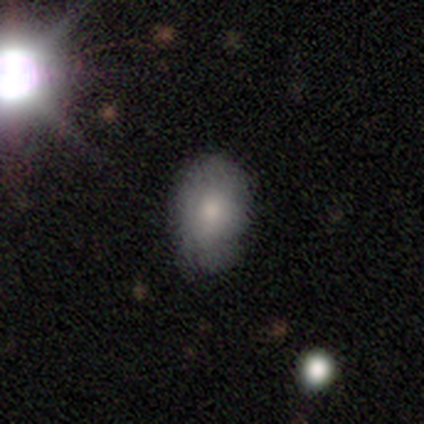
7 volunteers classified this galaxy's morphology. Smooth or featured?
  - smooth: 100% *
  - featured or disk: 0%
  - star or artifact: 0%
How rounded?
  - in between: 86% *
  - round: 14%
  - cigar-shaped: 0%
Merging?
  - minor disturbance: 57% *
  - none: 43%
  - major disturbance: 0%
  - merger: 0%